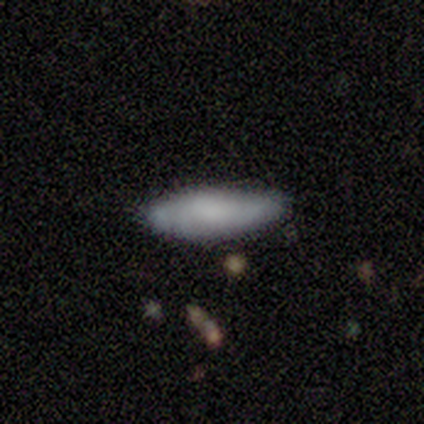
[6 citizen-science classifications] Smooth or featured: smooth — 83% (star or artifact — 17%)
How rounded: in between — 60% (cigar-shaped — 40%)
Merging: none — 80% (minor disturbance — 20%)